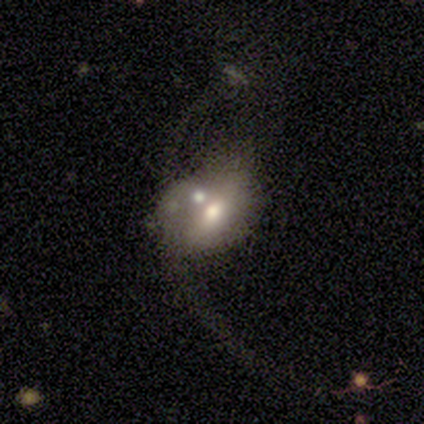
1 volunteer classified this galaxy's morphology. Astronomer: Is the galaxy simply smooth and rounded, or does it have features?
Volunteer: featured or disk — 100%.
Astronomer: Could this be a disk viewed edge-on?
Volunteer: no — 100%.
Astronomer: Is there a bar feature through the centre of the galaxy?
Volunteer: no — 100%.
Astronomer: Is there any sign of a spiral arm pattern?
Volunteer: no — 100%.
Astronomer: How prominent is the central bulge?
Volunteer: large — 100%.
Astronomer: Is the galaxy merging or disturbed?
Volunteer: merger — 100%.